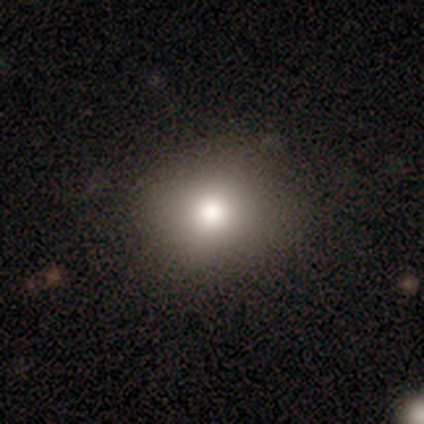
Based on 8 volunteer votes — A smooth galaxy with no disk features (75%) that is round (83%).

Vote fractions:
- Smooth or featured? smooth: 75% / featured or disk: 12% / star or artifact: 12%
- How rounded? round: 83% / in between: 17% / cigar-shaped: 0%
- Merging? none: 100% / minor disturbance: 0% / major disturbance: 0% / merger: 0%